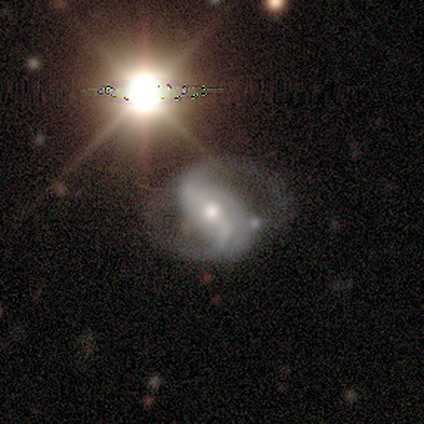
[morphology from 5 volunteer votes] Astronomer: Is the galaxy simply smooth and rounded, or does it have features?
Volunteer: featured or disk — 100%.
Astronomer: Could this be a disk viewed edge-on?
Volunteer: no — 100%.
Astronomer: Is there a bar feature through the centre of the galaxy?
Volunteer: strong — 40%, tied with no at 40%.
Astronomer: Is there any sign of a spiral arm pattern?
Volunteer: yes — 100%.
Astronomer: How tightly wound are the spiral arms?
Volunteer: loose — 60% (runner-up: medium, 40%).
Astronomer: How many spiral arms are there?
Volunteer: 2 — 100%.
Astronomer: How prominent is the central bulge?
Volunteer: moderate — 60% (runner-up: small, 40%).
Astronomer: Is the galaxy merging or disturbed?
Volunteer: none — 80%.